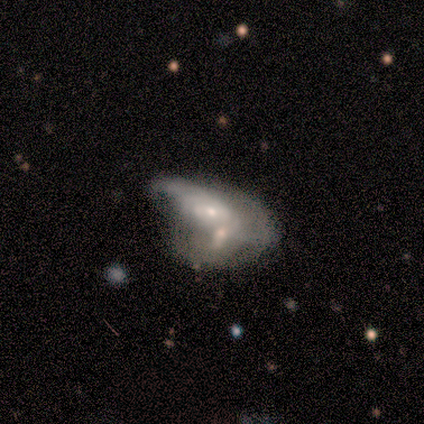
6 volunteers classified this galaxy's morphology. smooth_or_featured: featured or disk (p=0.67) [alt: smooth p=0.33]
disk_edge_on: no (p=1.00)
bar: strong (p=0.50) [tied with: weak p=0.50]
has_spiral_arms: yes (p=0.75) [alt: no p=0.25]
spiral_winding: tight (p=0.33) [tied with: medium p=0.33, loose p=0.33]
spiral_arm_count: can't tell (p=0.67) [alt: 2 p=0.33]
bulge_size: moderate (p=0.50) [tied with: small p=0.50]
merging: merger (p=0.67) [alt: none p=0.17]